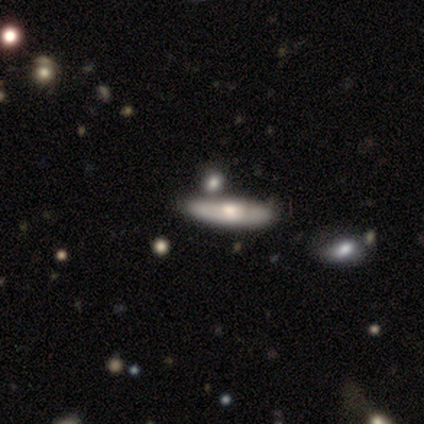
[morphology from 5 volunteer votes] Smooth or featured?
  - smooth: 60% *
  - featured or disk: 40%
  - star or artifact: 0%
How rounded?
  - in between: 67% *
  - cigar-shaped: 33%
  - round: 0%
Merging?
  - none: 80% *
  - merger: 20%
  - minor disturbance: 0%
  - major disturbance: 0%